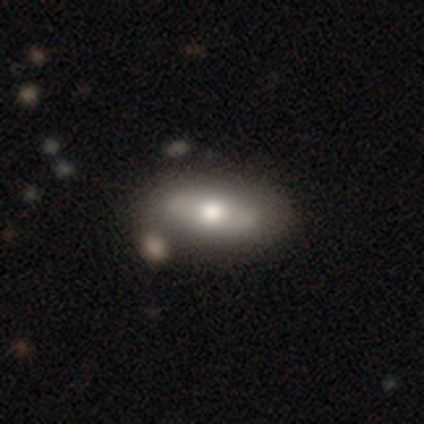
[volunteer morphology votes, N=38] Overall: smooth (50%; featured or disk 42%). How rounded: in between (79%). Merging: none (63%).